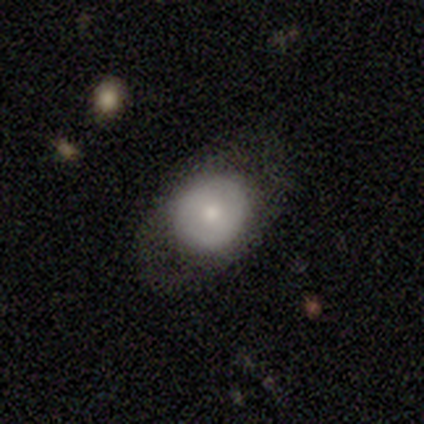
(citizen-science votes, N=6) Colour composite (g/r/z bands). It shows a smooth galaxy with no disk features (67%) that is round (75%). Merging: none (83%).